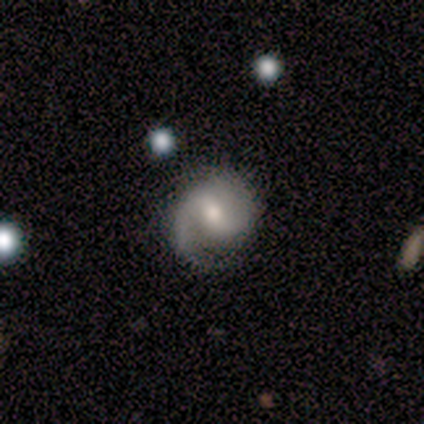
Morphology: type=featured or disk (80%); edge-on=no (100%); bar=weak (50%); spiral arms=yes (100%); winding=medium (50%); arm count=2 (75%); bulge=moderate (50%, tied with small); merging=none (100%).